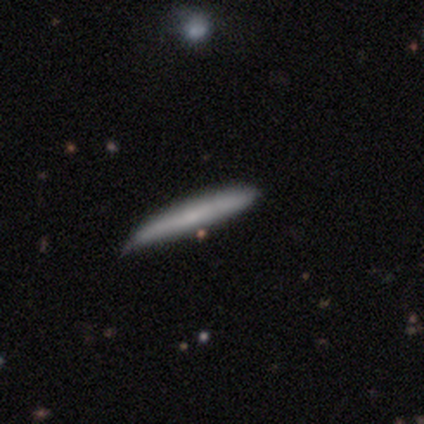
Smooth or featured? 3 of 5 (60%) said smooth. How rounded? 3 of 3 (100%) said cigar-shaped. Merging? 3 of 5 (60%) said none.